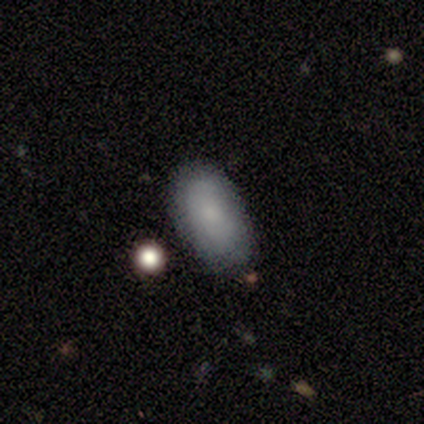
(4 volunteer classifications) This appears to be a smooth galaxy with no disk features (75%) that is in between round and cigar-shaped (100%). Merging: none (75%).